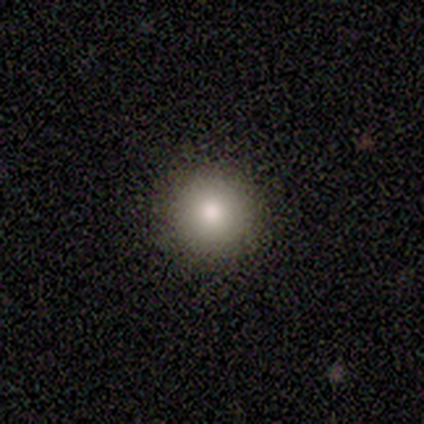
Morphology: type=smooth (80%); roundness=round (100%); merging=none (100%).